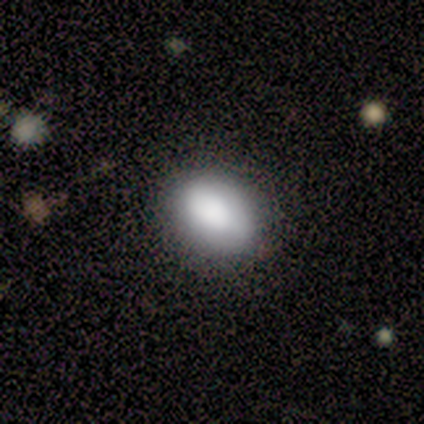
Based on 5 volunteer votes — Smooth or featured?
  - smooth: 80% *
  - featured or disk: 20%
  - star or artifact: 0%
How rounded?
  - in between: 100% *
  - round: 0%
  - cigar-shaped: 0%
Merging?
  - none: 100% *
  - minor disturbance: 0%
  - major disturbance: 0%
  - merger: 0%